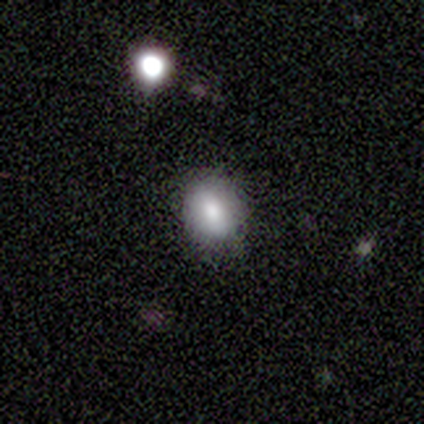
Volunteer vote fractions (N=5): Smooth or featured? smooth (60%)
How rounded? in between (67%)
Merging? none (80%)